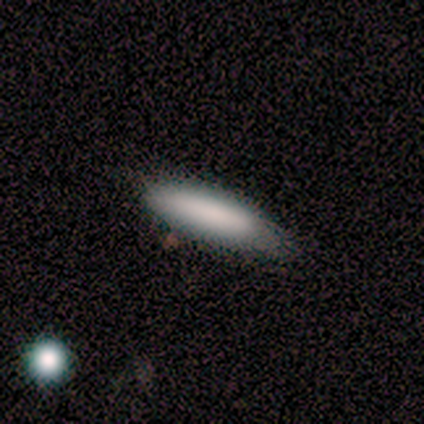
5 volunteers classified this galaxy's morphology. A smooth galaxy with no disk features (100%) that is cigar-shaped (80%). Merging: none (80%).